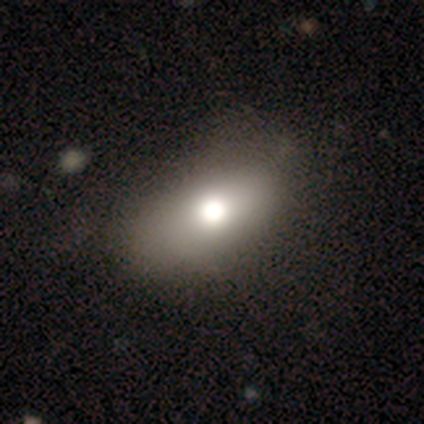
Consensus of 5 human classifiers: Volunteers were most divided on "merging": none: 50%, minor disturbance: 25%, major disturbance: 25%, merger: 0%. More confident: smooth or featured — smooth (80%); how rounded — in between (75%).